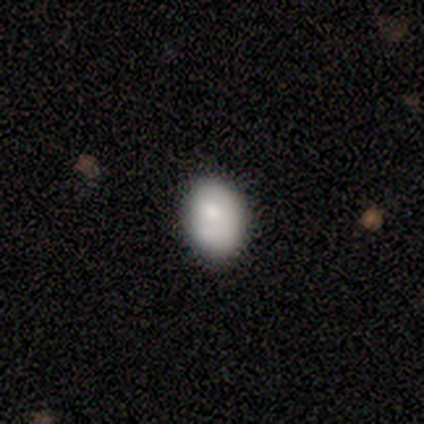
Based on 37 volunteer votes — smooth 84%, featured or disk 8%, star or artifact 8%. Down the decision tree: how rounded — in between (81%); merging — none (85%).